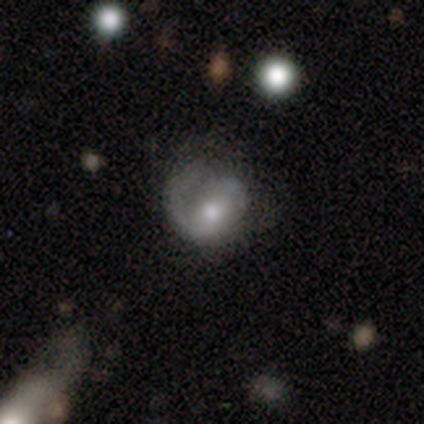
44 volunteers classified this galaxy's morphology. Q: Smooth or featured?
A: featured or disk (55%); runner-up: smooth (41%)
Q: Edge-on disk?
A: no (92%); runner-up: yes (8%)
Q: Bar?
A: no (68%); runner-up: weak (23%)
Q: Spiral arms?
A: yes (68%); runner-up: no (32%)
Q: Spiral winding?
A: tight (53%); runner-up: loose (27%)
Q: Spiral arm count?
A: 1 (80%); runner-up: can't tell (13%)
Q: Bulge size?
A: moderate (64%); runner-up: small (27%)
Q: Merging?
A: none (38%); runner-up: major disturbance (36%)